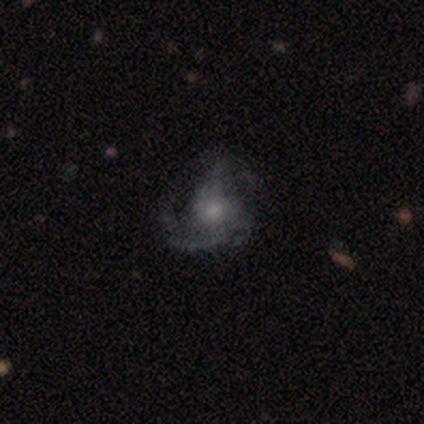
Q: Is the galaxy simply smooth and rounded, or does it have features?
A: featured or disk — 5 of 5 (100%).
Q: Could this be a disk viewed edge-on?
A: no — 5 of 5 (100%).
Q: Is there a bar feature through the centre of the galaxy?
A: no — 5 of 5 (100%).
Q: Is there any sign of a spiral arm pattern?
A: yes — 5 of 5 (100%).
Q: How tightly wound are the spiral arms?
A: loose — 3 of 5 (60%).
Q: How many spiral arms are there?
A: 3 — 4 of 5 (80%).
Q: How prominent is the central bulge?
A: small — 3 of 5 (60%).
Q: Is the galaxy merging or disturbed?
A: none — 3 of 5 (60%).